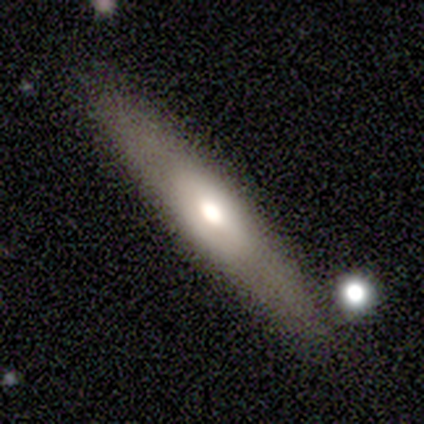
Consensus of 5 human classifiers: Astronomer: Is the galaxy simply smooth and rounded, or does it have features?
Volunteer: smooth — 60% (runner-up: featured or disk, 40%).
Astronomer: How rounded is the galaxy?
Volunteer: cigar-shaped — 67%.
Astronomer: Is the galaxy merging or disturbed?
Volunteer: none — 80%.